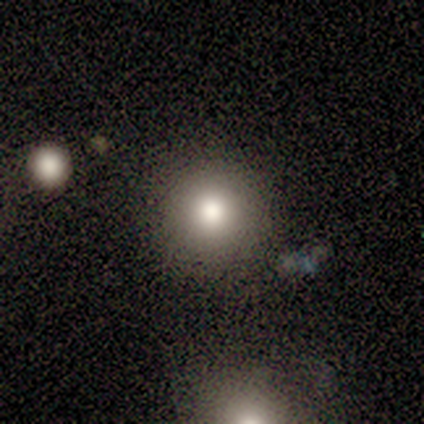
Q: Smooth or featured?
A: smooth (100%)
Q: How rounded?
A: round (100%)
Q: Merging?
A: none (100%)